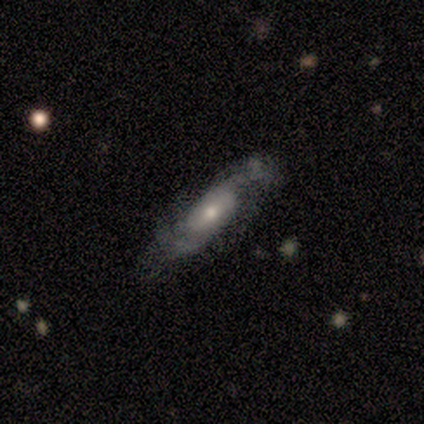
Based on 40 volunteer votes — A featured or disk galaxy (70%) with no bar (48%), 2 (62%) medium (48%) spiral arms (91%) and a moderate central bulge (61%).

Vote fractions:
- Smooth or featured? featured or disk: 70% / smooth: 20% / star or artifact: 10%
- Edge-on disk? no: 82% / yes: 18%
- Bar? no: 48% / weak: 39% / strong: 13%
- Spiral arms? yes: 91% / no: 9%
- Spiral winding? medium: 48% / loose: 43% / tight: 10%
- Spiral arm count? 2: 62% / can't tell: 24% / 1: 5% / 3: 5% / 4: 5% / more than 4: 0%
- Bulge size? moderate: 61% / small: 39% / dominant: 0% / large: 0% / none: 0%
- Merging? none: 67% / minor disturbance: 17% / major disturbance: 14% / merger: 3%